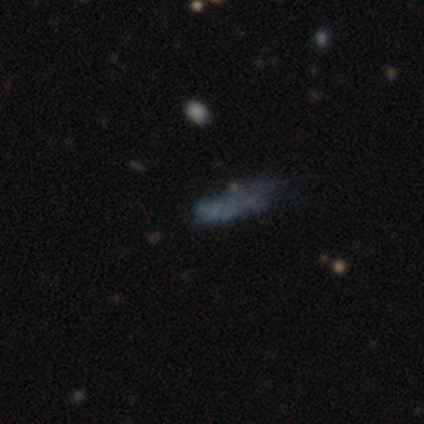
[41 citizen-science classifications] Smooth or featured? smooth (49%)
How rounded? in between (55%)
Merging? none (41%)